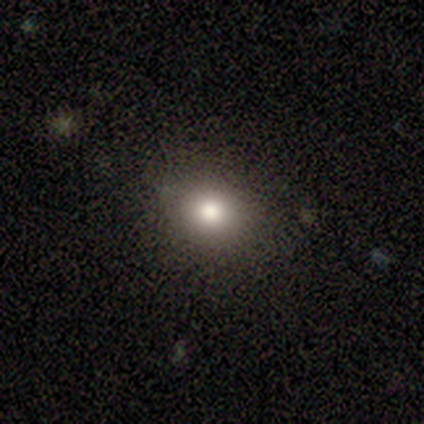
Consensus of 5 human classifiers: Volunteers were most divided on "how rounded": round: 60%, in between: 40%, cigar-shaped: 0%. More confident: smooth or featured — smooth (100%); merging — none (100%).